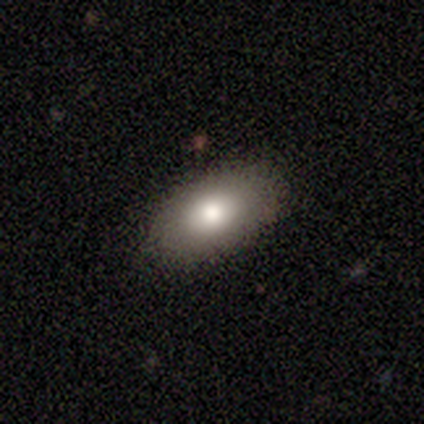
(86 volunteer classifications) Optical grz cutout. It shows a smooth galaxy with no disk features (87%) that is in between round and cigar-shaped (97%). Merging: none (90%).